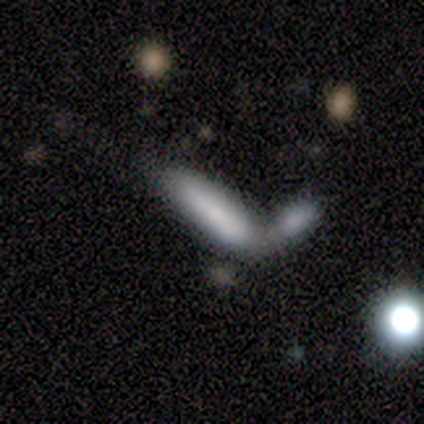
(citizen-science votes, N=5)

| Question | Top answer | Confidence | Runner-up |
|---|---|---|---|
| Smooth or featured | smooth | 100% | — |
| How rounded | cigar-shaped | 60% | in between (40%) |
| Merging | merger | 60% | minor disturbance (40%) |